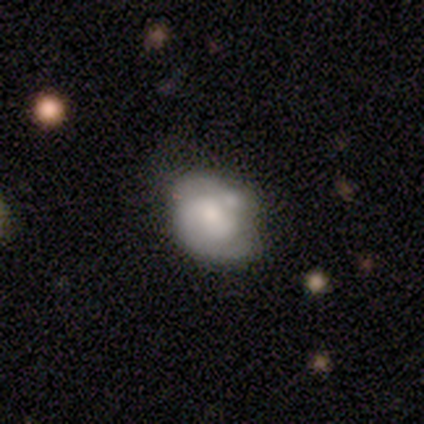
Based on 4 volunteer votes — A smooth galaxy with no disk features (50%, tied with featured or disk) that is in between round and cigar-shaped (100%). Merging: none (25%, tied with minor disturbance, major disturbance and merger).